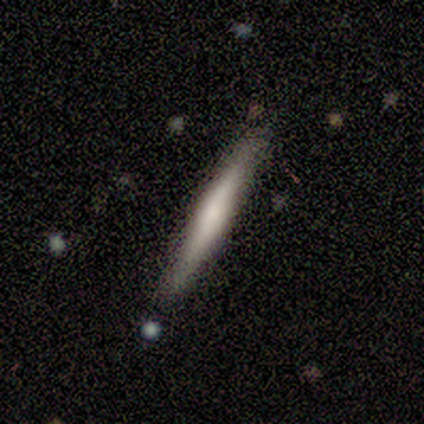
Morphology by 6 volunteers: Overall: smooth (50%, tied with featured or disk). How rounded: cigar-shaped (100%). Merging: none (50%; minor disturbance 33%).